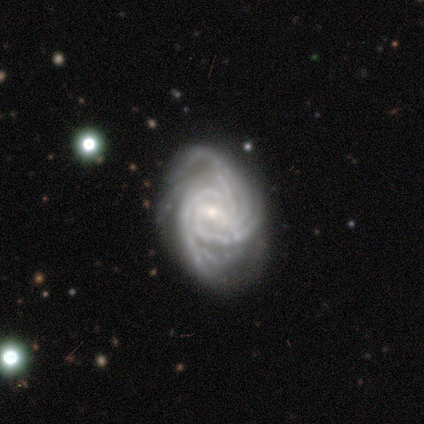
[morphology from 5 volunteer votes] smooth-or-featured: featured or disk: 80% | smooth: 20% | star or artifact: 0%
  disk-edge-on: no: 100% | yes: 0%
    bar: strong: 50% (tied) | weak: 50% (tied) | no: 0%
    has-spiral-arms: yes: 100% | no: 0%
      spiral-winding: tight: 75% | medium: 25% | loose: 0%
      spiral-arm-count: 4: 50% | more than 4: 25% | can't tell: 25% | 1: 0% | 2: 0% | 3: 0%
    bulge-size: small: 100% | dominant: 0% | large: 0% | moderate: 0% | none: 0%
  merging: none: 40% (tied) | minor disturbance: 40% (tied) | major disturbance: 20% | merger: 0%